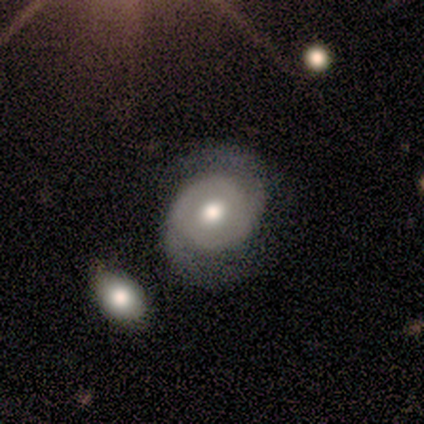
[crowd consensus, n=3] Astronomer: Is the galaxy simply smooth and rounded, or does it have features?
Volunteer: featured or disk — 100%.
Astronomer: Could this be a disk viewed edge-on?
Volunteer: no — 100%.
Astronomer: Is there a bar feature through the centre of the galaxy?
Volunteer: no — 100%.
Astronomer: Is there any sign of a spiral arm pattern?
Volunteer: yes — 67%.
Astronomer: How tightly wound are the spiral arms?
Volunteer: loose — 100%.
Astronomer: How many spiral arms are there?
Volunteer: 2 — 100%.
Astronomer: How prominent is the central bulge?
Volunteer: large — 67%.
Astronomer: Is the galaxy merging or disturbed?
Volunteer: none — 67%.